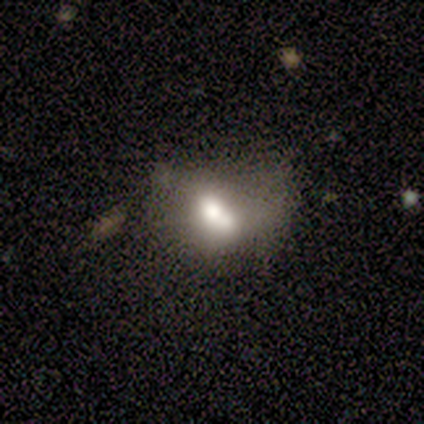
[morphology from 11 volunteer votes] This is possibly a smooth galaxy (55%). How rounded: likely in between (67%). Merging: possibly merger (50%).